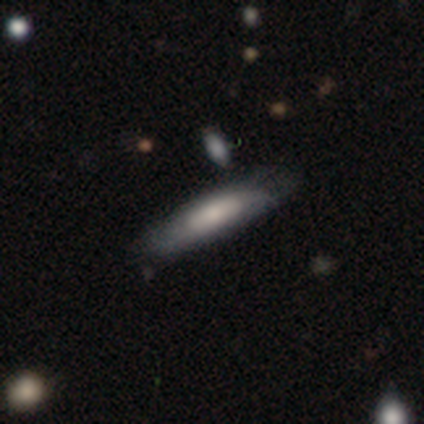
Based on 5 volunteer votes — Smooth or featured? featured or disk (80%)
Edge-on disk? yes (75%)
Edge-on bulge? none (67%)
Merging? none (75%)